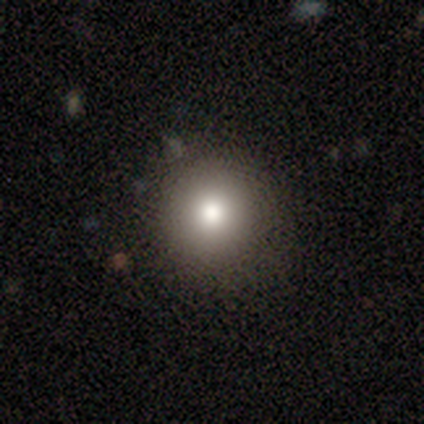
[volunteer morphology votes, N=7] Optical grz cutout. It shows a smooth galaxy with no disk features (43%) that is round (100%). Merging: none (100%).